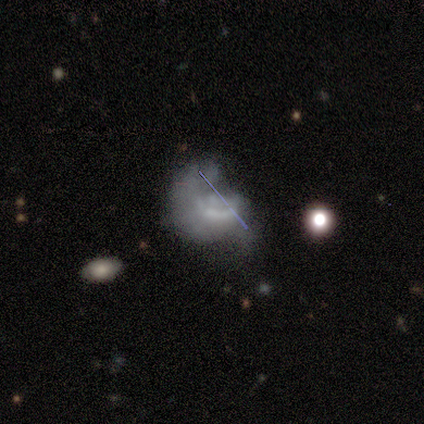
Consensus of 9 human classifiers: Smooth or featured? 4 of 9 (44%) said featured or disk. Edge-on disk? 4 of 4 (100%) said no. Bar? 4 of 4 (100%) said no. Spiral arms? 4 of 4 (100%) said no. Bulge size? 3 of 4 (75%) said none. Merging? 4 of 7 (57%) said major disturbance.